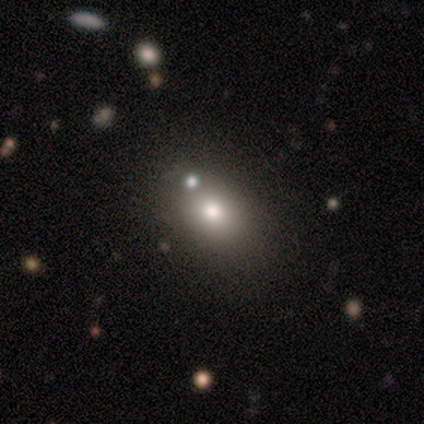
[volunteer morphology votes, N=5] Smooth or featured? smooth (100%)
How rounded? in between (80%)
Merging? none (60%)